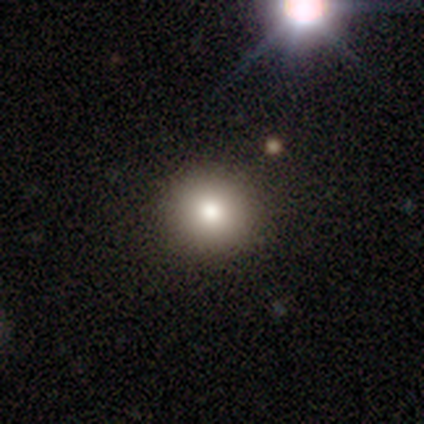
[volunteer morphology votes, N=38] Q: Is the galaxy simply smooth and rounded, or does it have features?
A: smooth — 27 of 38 (71%).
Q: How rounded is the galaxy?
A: round — 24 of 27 (89%).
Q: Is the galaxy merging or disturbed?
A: none — 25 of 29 (86%).